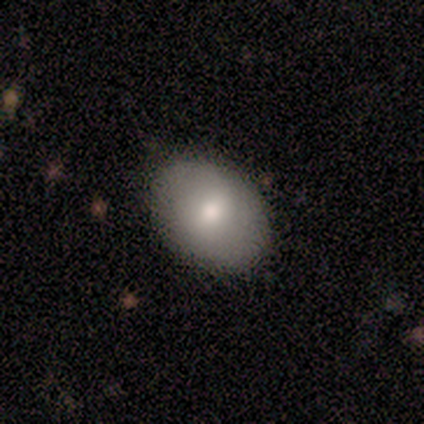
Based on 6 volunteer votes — This is likely a smooth galaxy (67%). How rounded: clearly in between (100%). Merging: clearly none (100%).